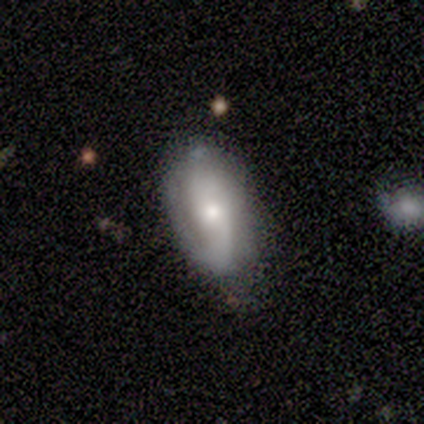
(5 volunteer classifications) Q: Smooth or featured?
A: featured or disk (80%); runner-up: smooth (20%)
Q: Edge-on disk?
A: no (75%); runner-up: yes (25%)
Q: Bar?
A: no (67%); runner-up: weak (33%)
Q: Spiral arms?
A: yes (100%)
Q: Spiral winding?
A: tight (67%); runner-up: loose (33%)
Q: Spiral arm count?
A: can't tell (67%); runner-up: 1 (33%)
Q: Bulge size?
A: moderate (67%); runner-up: small (33%)
Q: Merging?
A: minor disturbance (60%); runner-up: none (40%)